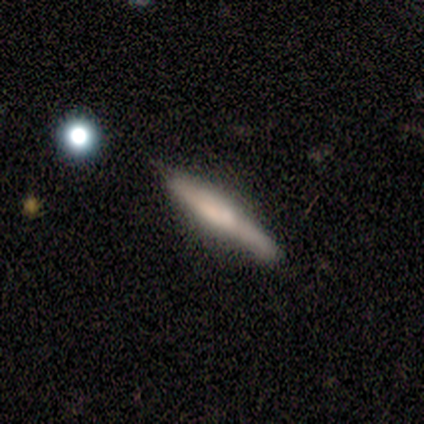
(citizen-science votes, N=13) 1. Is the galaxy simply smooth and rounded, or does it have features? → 69% smooth, 31% featured or disk, 0% star or artifact.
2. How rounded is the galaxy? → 100% cigar-shaped, 0% round, 0% in between.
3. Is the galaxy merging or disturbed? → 54% none, 38% minor disturbance, 8% major disturbance, 0% merger.